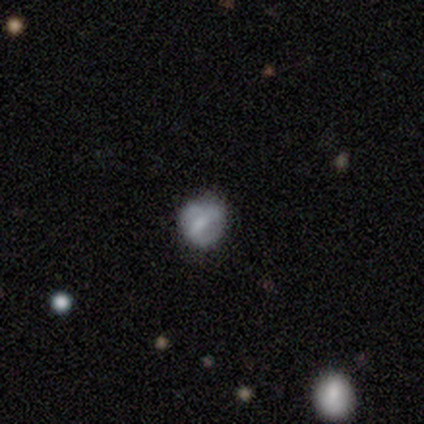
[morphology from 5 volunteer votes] This is marginally a smooth galaxy (40%, tied with featured or disk). How rounded: clearly round (100%). Merging: clearly none (100%).